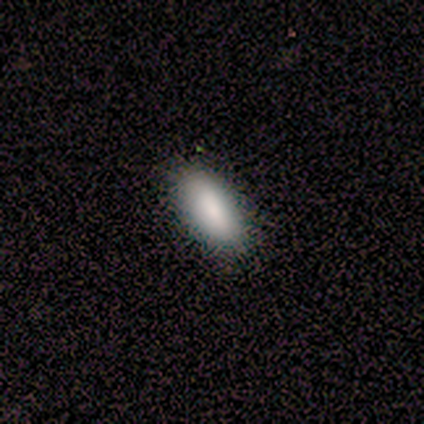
smooth_or_featured: smooth (p=1.00)
how_rounded: in between (p=1.00)
merging: none (p=1.00)